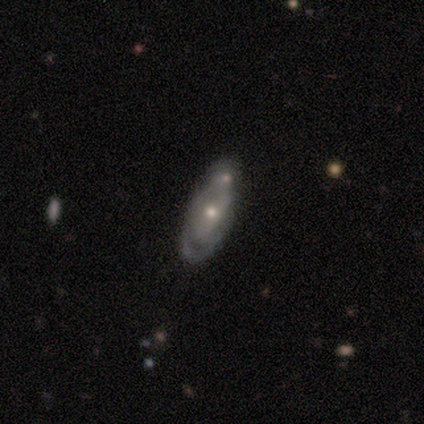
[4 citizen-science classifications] Overall: featured or disk (50%; smooth 25%). Edge-on disk: yes (50%, tied with no). Edge-on bulge: none (100%). Merging: none (100%).